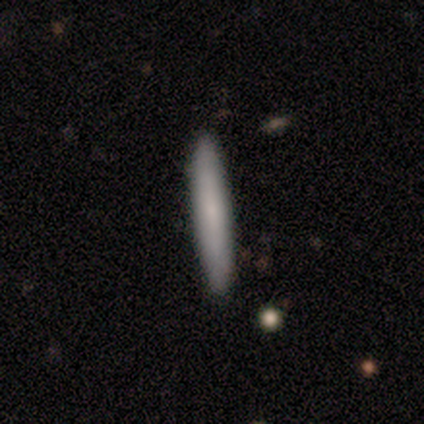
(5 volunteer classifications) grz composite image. It shows a smooth galaxy with no disk features (100%) that is cigar-shaped (100%). Merging: none (100%).